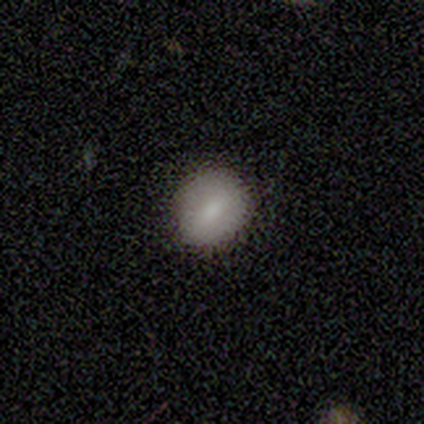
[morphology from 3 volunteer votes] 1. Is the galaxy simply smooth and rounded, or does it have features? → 100% smooth, 0% featured or disk, 0% star or artifact.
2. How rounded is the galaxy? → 67% round, 33% in between, 0% cigar-shaped.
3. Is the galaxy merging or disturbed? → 100% none, 0% minor disturbance, 0% major disturbance, 0% merger.